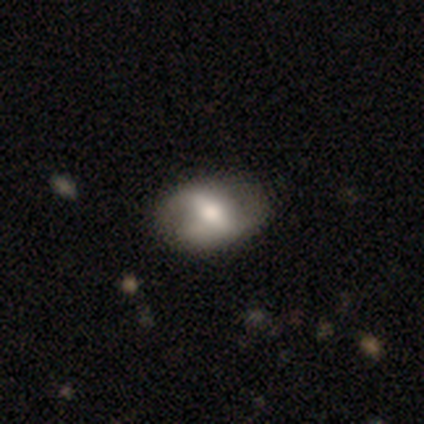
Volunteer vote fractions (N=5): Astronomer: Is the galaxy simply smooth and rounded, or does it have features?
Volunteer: featured or disk — 100%.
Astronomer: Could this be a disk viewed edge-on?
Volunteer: no — 80%.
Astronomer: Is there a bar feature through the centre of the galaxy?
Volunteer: strong — 50%.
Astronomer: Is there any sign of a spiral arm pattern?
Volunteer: yes — 75%.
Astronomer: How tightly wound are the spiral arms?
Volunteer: tight — 67%.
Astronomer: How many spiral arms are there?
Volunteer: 2 — 67%.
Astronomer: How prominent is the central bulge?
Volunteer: moderate — 50%.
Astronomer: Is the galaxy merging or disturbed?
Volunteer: none — 60% (runner-up: minor disturbance, 40%).